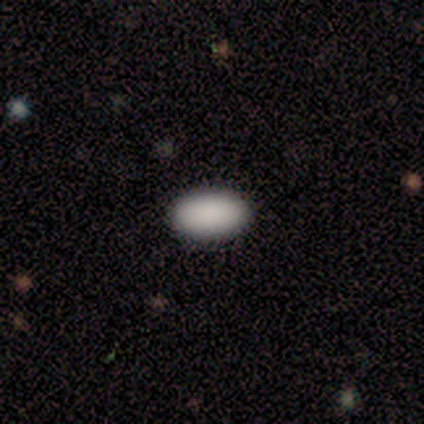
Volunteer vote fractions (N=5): Q: Smooth or featured?
A: smooth (100%)
Q: How rounded?
A: in between (100%)
Q: Merging?
A: none (100%)